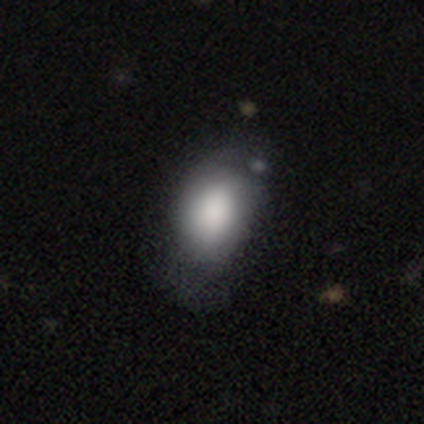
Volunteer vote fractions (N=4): A smooth galaxy with no disk features (50%, tied with featured or disk) that is in between round and cigar-shaped (100%).

Vote fractions:
- Smooth or featured? smooth: 50% (tied) / featured or disk: 50% (tied) / star or artifact: 0%
- How rounded? in between: 100% / round: 0% / cigar-shaped: 0%
- Merging? minor disturbance: 75% / major disturbance: 25% / none: 0% / merger: 0%